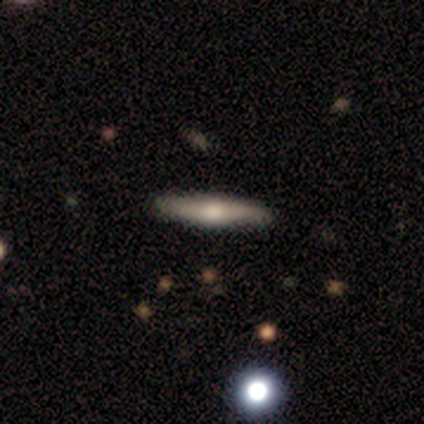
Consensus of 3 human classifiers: Overall: smooth (33%, tied with featured or disk and star or artifact). How rounded: cigar-shaped (100%). Merging: none (100%).